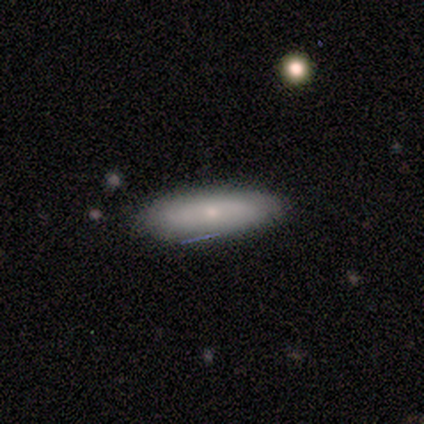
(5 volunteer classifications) smooth 80%, star or artifact 20%, featured or disk 0%. Down the decision tree: how rounded — in between (75%); merging — none (75%).